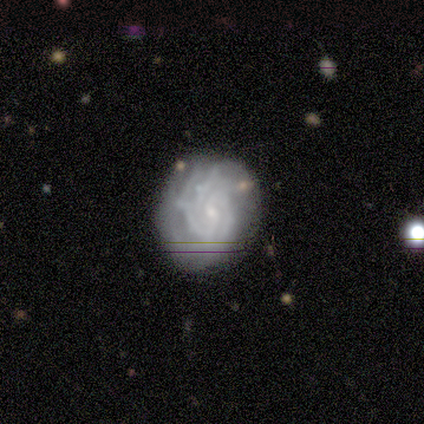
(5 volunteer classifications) Q: Smooth or featured?
A: featured or disk (100%)
Q: Edge-on disk?
A: no (100%)
Q: Bar?
A: no (60%); runner-up: strong (20%)
Q: Spiral arms?
A: yes (80%); runner-up: no (20%)
Q: Spiral winding?
A: tight (50%); tied with: medium (50%)
Q: Spiral arm count?
A: 3 (50%); runner-up: 2 (25%)
Q: Bulge size?
A: small (60%); runner-up: moderate (40%)
Q: Merging?
A: none (80%); runner-up: merger (20%)